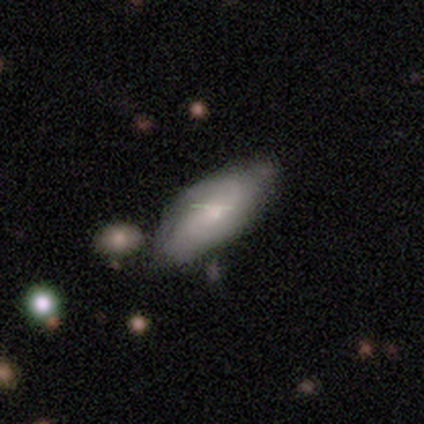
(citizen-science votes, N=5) Q: Smooth or featured?
A: smooth (100%)
Q: How rounded?
A: in between (100%)
Q: Merging?
A: none (60%); runner-up: minor disturbance (40%)